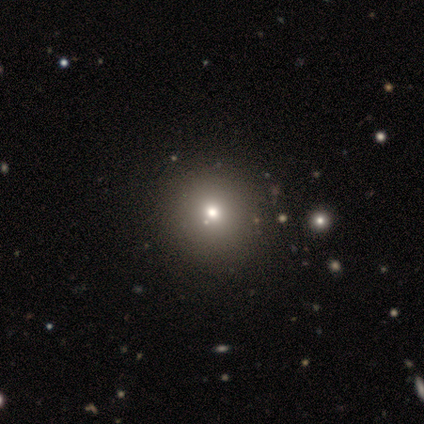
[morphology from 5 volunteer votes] This is marginally a smooth galaxy (40%, tied with star or artifact). How rounded: clearly round (100%). Merging: clearly none (100%).